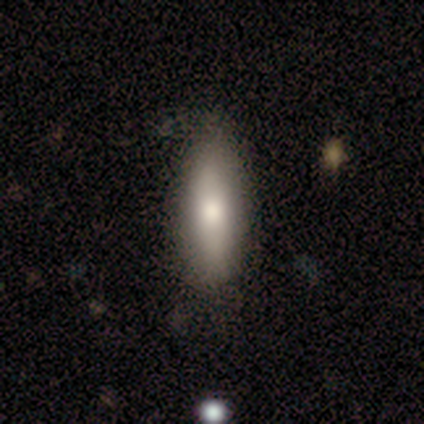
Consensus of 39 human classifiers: smooth-or-featured: smooth: 79% | featured or disk: 18% | star or artifact: 3%
  how-rounded: in between: 52% | cigar-shaped: 48% | round: 0%
  merging: none: 68% | minor disturbance: 18% | major disturbance: 11% | merger: 3%